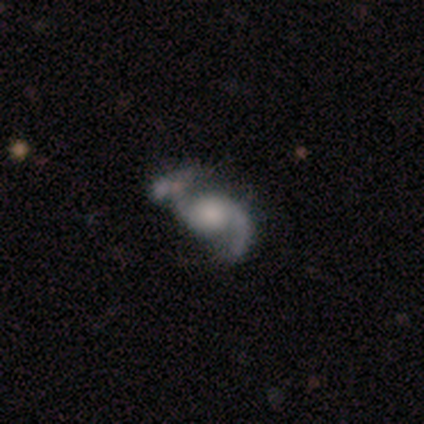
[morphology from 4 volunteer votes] smooth-or-featured: featured or disk: 75% | smooth: 25% | star or artifact: 0%
  disk-edge-on: no: 67% | yes: 33%
    bar: no: 100% | strong: 0% | weak: 0%
    has-spiral-arms: yes: 100% | no: 0%
      spiral-winding: loose: 100% | tight: 0% | medium: 0%
      spiral-arm-count: 1: 50% (tied) | 2: 50% (tied) | 3: 0% | 4: 0% | more than 4: 0% | can't tell: 0%
    bulge-size: large: 50% (tied) | small: 50% (tied) | dominant: 0% | moderate: 0% | none: 0%
  merging: none: 25% (tied) | minor disturbance: 25% (tied) | major disturbance: 25% (tied) | merger: 25% (tied)